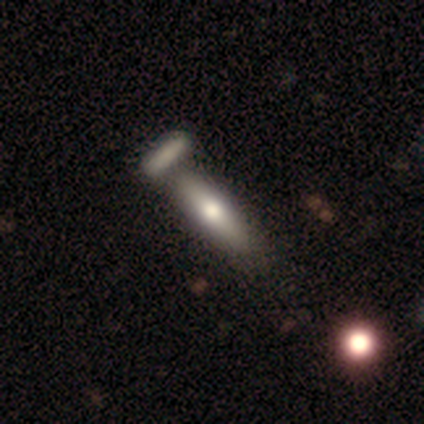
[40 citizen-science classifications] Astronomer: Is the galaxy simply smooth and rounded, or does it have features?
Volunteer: smooth — 70%.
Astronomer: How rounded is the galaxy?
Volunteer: cigar-shaped — 71%.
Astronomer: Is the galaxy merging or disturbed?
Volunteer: none — 50% (runner-up: merger, 37%).